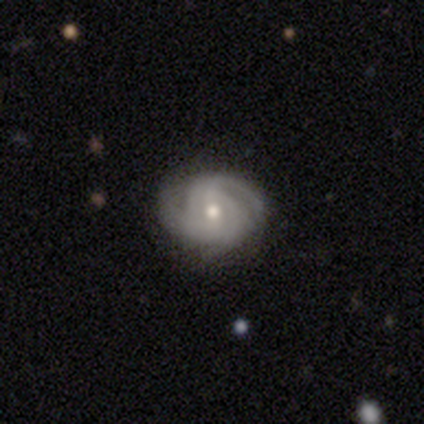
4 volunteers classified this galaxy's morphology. Q: Smooth or featured?
A: featured or disk (100%)
Q: Edge-on disk?
A: no (100%)
Q: Bar?
A: no (75%); runner-up: weak (25%)
Q: Spiral arms?
A: yes (75%); runner-up: no (25%)
Q: Spiral winding?
A: medium (67%); runner-up: tight (33%)
Q: Spiral arm count?
A: can't tell (67%); runner-up: 3 (33%)
Q: Bulge size?
A: moderate (50%); tied with: small (50%)
Q: Merging?
A: none (75%); runner-up: minor disturbance (25%)